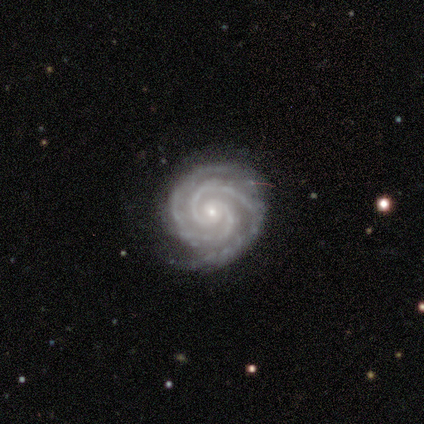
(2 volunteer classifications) A featured or disk galaxy (100%) with a strong bar (50%, tied with no), 3 (100%) tight (100%) spiral arms (100%) and a moderate central bulge (50%, tied with small). Merging: none (100%).